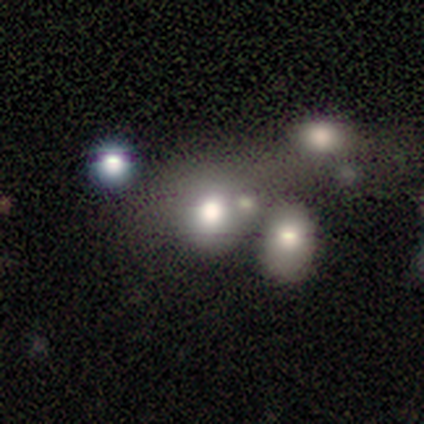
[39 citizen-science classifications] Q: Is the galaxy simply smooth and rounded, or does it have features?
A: smooth — 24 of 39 (62%).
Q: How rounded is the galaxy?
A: round — 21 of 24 (88%).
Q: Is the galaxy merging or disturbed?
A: none — 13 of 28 (46%).